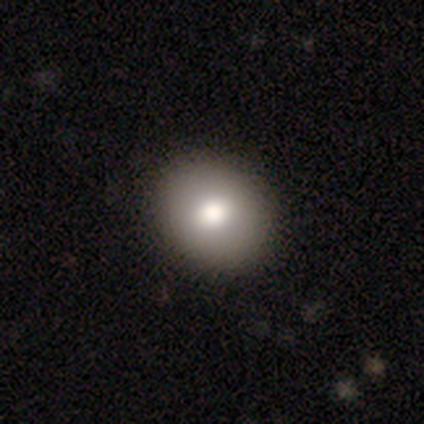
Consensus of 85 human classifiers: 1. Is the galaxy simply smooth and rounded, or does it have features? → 84% smooth, 8% featured or disk, 8% star or artifact.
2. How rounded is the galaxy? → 61% round, 39% in between, 0% cigar-shaped.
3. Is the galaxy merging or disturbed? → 86% none, 13% minor disturbance, 1% major disturbance, 0% merger.